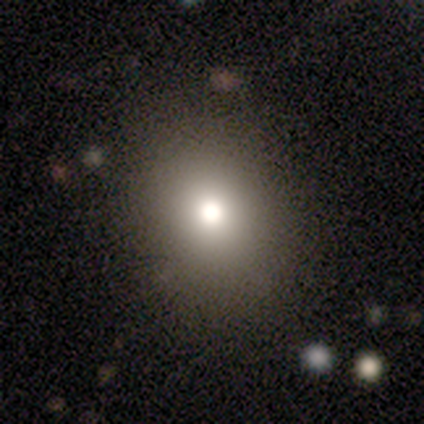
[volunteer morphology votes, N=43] A smooth galaxy with no disk features (72%) that is in between round and cigar-shaped (52%).

Vote fractions:
- Smooth or featured? smooth: 72% / featured or disk: 16% / star or artifact: 12%
- How rounded? in between: 52% / round: 48% / cigar-shaped: 0%
- Merging? none: 89% / minor disturbance: 8% / merger: 3% / major disturbance: 0%